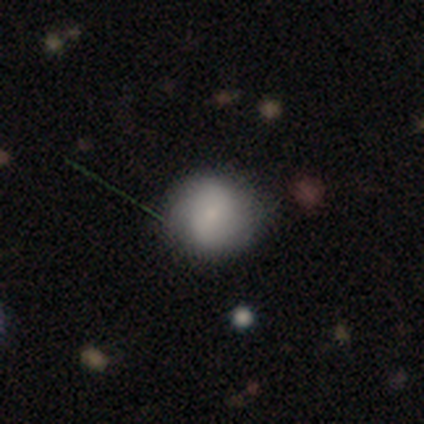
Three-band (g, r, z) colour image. It shows a smooth galaxy with no disk features (68%) that is round (100%). Merging: none (84%).